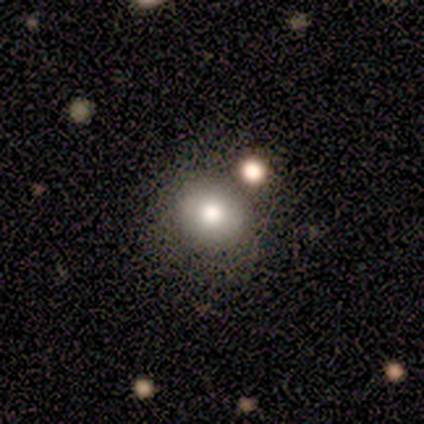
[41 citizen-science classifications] This appears to be a smooth galaxy with no disk features (78%) that is round (81%). Merging: none (78%).